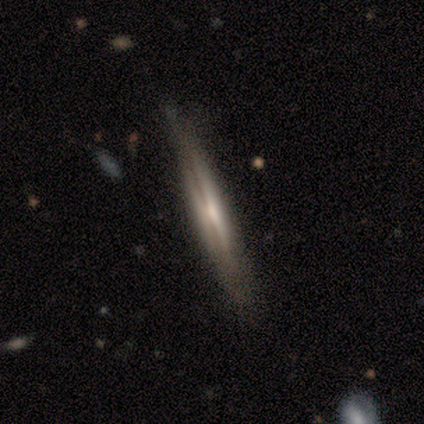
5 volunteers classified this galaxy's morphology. Smooth or featured: featured or disk — 80% (smooth — 20%)
Edge-on disk: yes — 100%
Edge-on bulge: none — 50% (boxy — 25%)
Merging: none — 100%